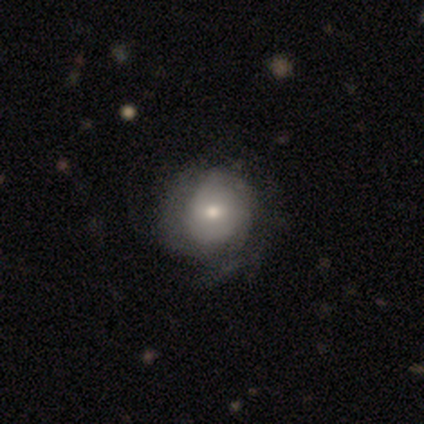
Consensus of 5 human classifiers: smooth-or-featured: featured or disk: 60% | smooth: 20% | star or artifact: 20%
  disk-edge-on: no: 100% | yes: 0%
    bar: no: 100% | strong: 0% | weak: 0%
    has-spiral-arms: yes: 100% | no: 0%
      spiral-winding: tight: 100% | medium: 0% | loose: 0%
      spiral-arm-count: 1: 33% (tied) | 3: 33% (tied) | can't tell: 33% (tied) | 2: 0% | 4: 0% | more than 4: 0%
    bulge-size: large: 33% (tied) | moderate: 33% (tied) | small: 33% (tied) | dominant: 0% | none: 0%
  merging: none: 75% | minor disturbance: 25% | major disturbance: 0% | merger: 0%